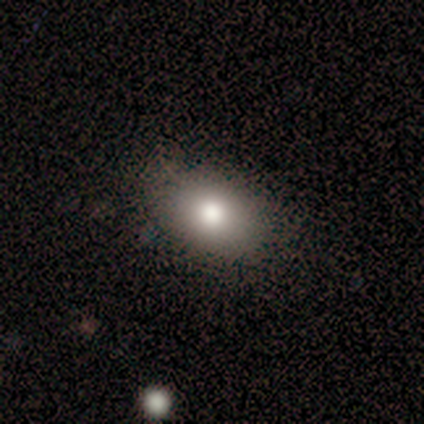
This is clearly a smooth galaxy (85%). How rounded: likely in between (76%). Merging: likely none (63%).